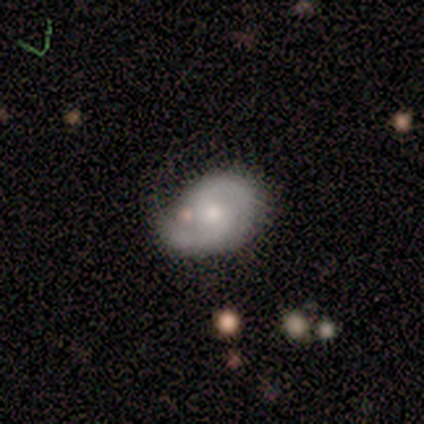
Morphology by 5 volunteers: Q: Smooth or featured?
A: featured or disk (80%); runner-up: smooth (20%)
Q: Edge-on disk?
A: no (100%)
Q: Bar?
A: weak (50%); tied with: no (50%)
Q: Spiral arms?
A: yes (75%); runner-up: no (25%)
Q: Spiral winding?
A: medium (67%); runner-up: tight (33%)
Q: Spiral arm count?
A: 2 (100%)
Q: Bulge size?
A: small (75%); runner-up: moderate (25%)
Q: Merging?
A: minor disturbance (60%); runner-up: none (40%)